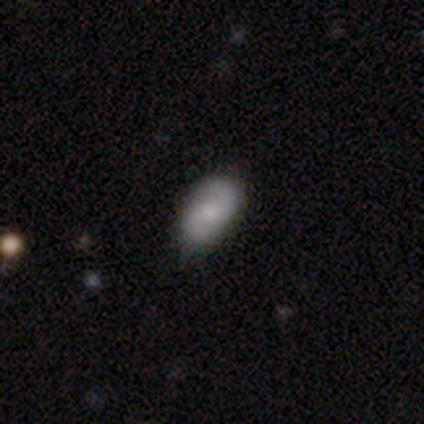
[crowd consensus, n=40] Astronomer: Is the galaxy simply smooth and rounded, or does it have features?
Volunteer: featured or disk — 60% (runner-up: smooth, 38%).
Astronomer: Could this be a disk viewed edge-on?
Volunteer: no — 100%.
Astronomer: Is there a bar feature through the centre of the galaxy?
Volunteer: no — 71%.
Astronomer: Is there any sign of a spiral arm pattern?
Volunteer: yes — 100%.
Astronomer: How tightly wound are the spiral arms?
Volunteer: loose — 58%.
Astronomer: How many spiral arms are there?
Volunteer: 2 — 96%.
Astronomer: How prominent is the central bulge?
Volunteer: moderate — 46% (runner-up: small, 25%).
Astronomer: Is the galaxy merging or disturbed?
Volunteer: none — 59%.